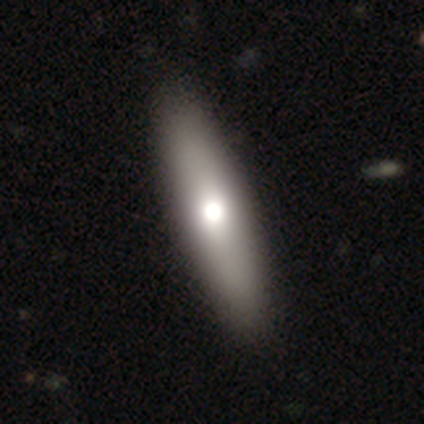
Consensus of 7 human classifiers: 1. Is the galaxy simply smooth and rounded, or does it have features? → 57% featured or disk, 43% smooth, 0% star or artifact.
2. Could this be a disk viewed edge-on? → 50% yes (tied), 50% no (tied).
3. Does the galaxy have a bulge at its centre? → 100% rounded, 0% boxy, 0% none.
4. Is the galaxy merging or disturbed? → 71% none, 14% minor disturbance, 14% major disturbance, 0% merger.